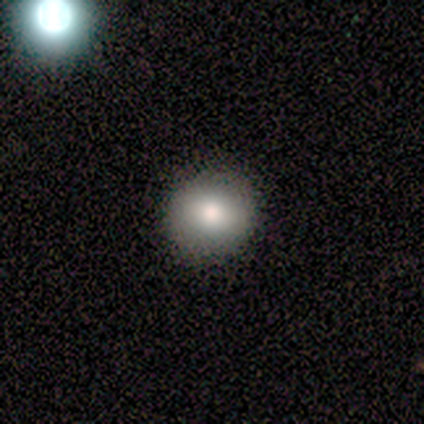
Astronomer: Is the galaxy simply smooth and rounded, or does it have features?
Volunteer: smooth — 82%.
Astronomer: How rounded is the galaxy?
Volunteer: round — 89%.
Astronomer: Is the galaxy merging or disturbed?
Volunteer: none — 91%.